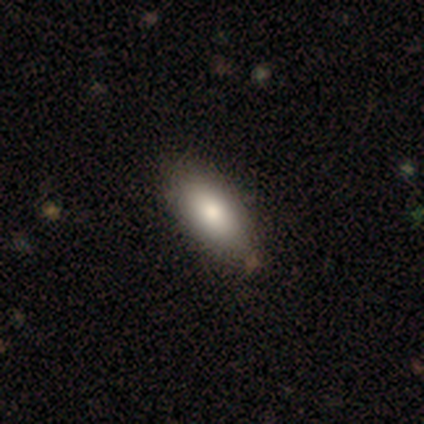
A smooth galaxy with no disk features (95%) that is in between round and cigar-shaped (95%). Merging: none (67%).